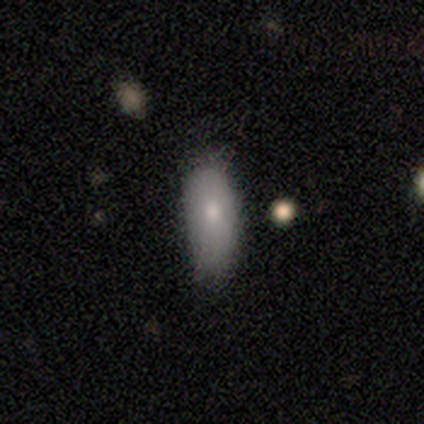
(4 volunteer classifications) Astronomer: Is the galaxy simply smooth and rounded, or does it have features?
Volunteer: featured or disk — 75%.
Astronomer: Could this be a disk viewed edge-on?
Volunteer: no — 100%.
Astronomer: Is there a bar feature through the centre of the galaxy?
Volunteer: no — 100%.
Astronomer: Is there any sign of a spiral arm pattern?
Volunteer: no — 100%.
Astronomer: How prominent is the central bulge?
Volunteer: moderate — 100%.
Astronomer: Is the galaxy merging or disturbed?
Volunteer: none — 50%, tied with minor disturbance at 50%.